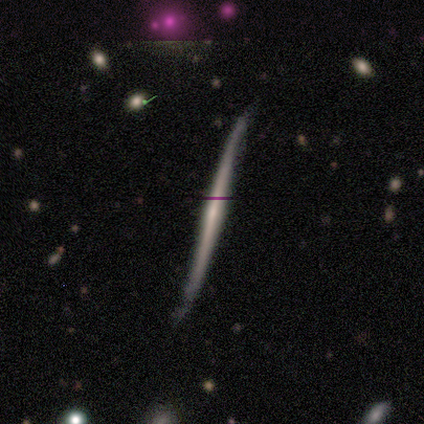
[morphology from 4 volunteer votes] This appears to be a featured or disk galaxy (50%) viewed edge-on (100%) with a rounded central bulge (100%). Merging: none (67%).